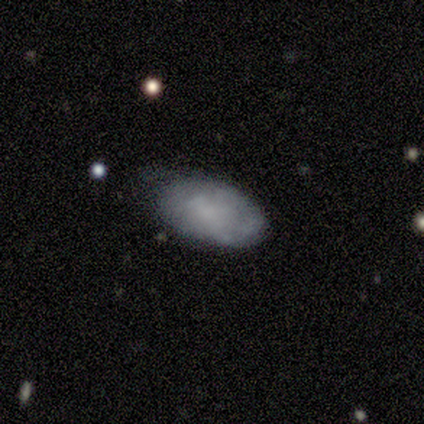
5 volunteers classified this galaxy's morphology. type=featured or disk (60%); edge-on=no (100%); bar=no (100%); spiral arms=no (67%); bulge=none (67%); merging=none (100%).